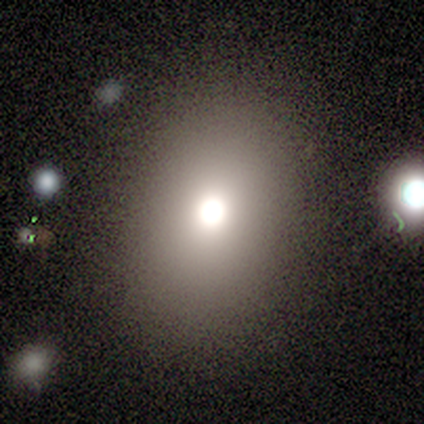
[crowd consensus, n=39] Volunteers were most divided on "how rounded": in between: 51%, round: 49%, cigar-shaped: 0%. More confident: smooth or featured — smooth (90%); merging — none (86%).